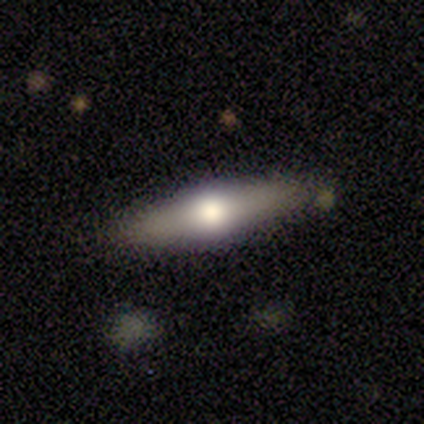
Smooth or featured? 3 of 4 (75%) said smooth. How rounded? 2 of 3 (67%) said cigar-shaped. Merging? 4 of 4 (100%) said none.